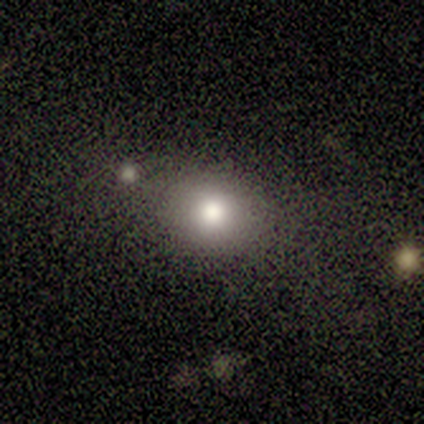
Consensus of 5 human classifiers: Volunteers were most divided on "merging": none: 75%, merger: 25%, minor disturbance: 0%, major disturbance: 0%. More confident: how rounded — round (100%); smooth or featured — smooth (80%).